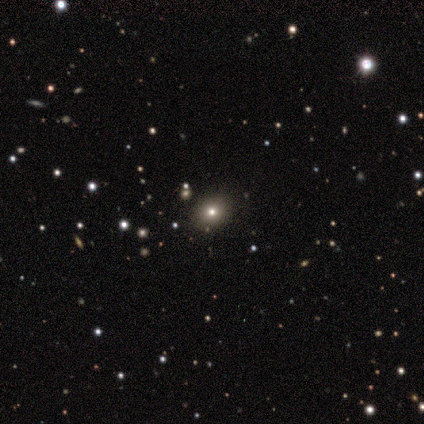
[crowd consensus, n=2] Smooth or featured? 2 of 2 (100%) said star or artifact.